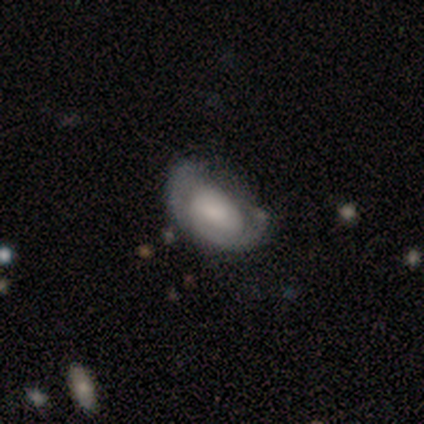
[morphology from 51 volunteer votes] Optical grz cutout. It shows a featured or disk galaxy (63%) with no bar (66%), 2 (35%, tied with can't tell) tight (55%) spiral arms (62%) and a moderate central bulge (31%). Merging: minor disturbance (40%).